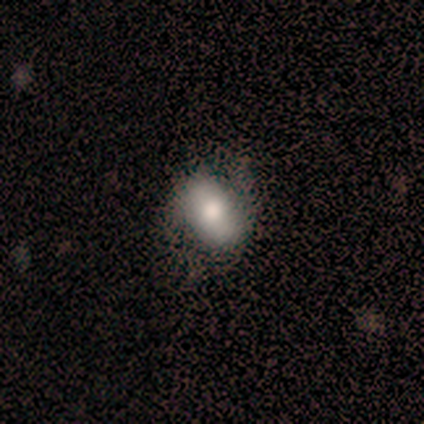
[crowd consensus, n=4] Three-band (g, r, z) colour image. It shows a smooth galaxy with no disk features (75%) that is in between round and cigar-shaped (67%). Merging: none (75%).